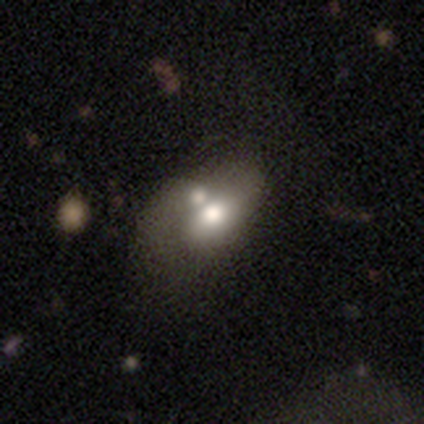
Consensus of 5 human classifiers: This appears to be a smooth galaxy with no disk features (80%) that is in between round and cigar-shaped (100%). Merging: none (40%, tied with minor disturbance).